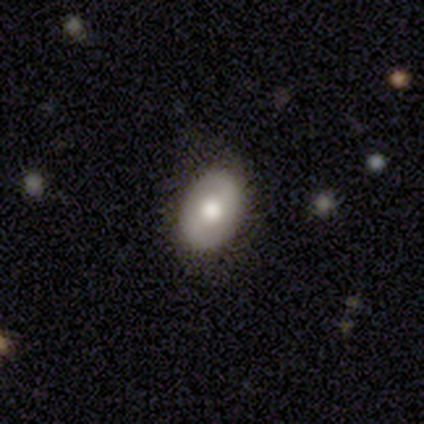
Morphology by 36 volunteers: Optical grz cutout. It shows a smooth galaxy with no disk features (64%) that is in between round and cigar-shaped (100%). Merging: none (82%).